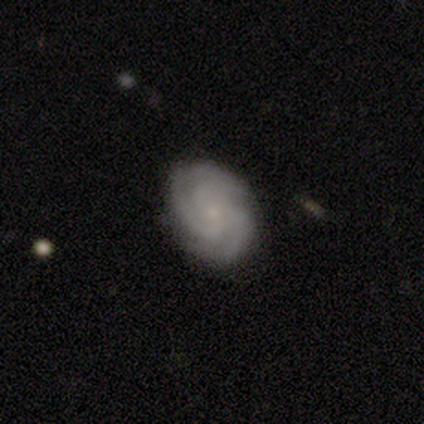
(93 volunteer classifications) Morphology: type=featured or disk (89%); edge-on=no (98%); bar=no (78%); spiral arms=yes (99%); winding=tight (55%); arm count=3 (78%); bulge=small (89%); merging=none (90%).